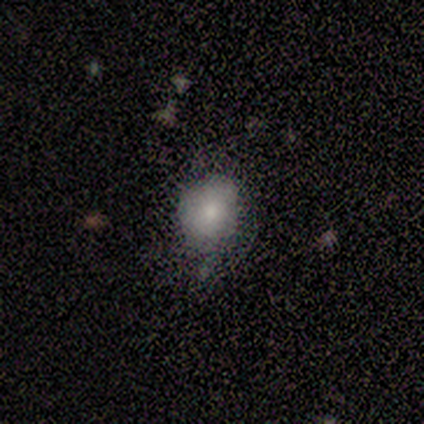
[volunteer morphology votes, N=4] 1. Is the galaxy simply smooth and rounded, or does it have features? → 50% smooth, 25% featured or disk, 25% star or artifact.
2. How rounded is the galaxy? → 50% round (tied), 50% in between (tied), 0% cigar-shaped.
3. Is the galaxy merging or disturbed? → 33% none (tied), 33% minor disturbance (tied), 33% major disturbance (tied), 0% merger.